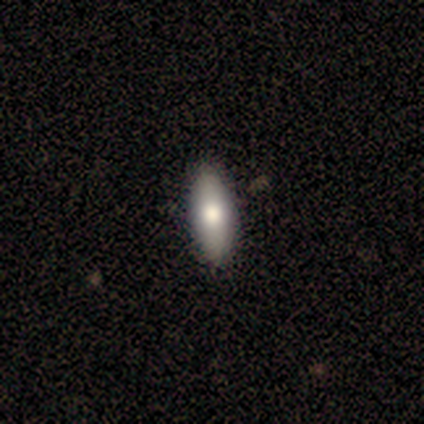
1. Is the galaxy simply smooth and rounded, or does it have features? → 60% smooth, 40% featured or disk, 0% star or artifact.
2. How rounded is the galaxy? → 67% in between, 33% cigar-shaped, 0% round.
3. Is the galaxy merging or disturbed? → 100% none, 0% minor disturbance, 0% major disturbance, 0% merger.